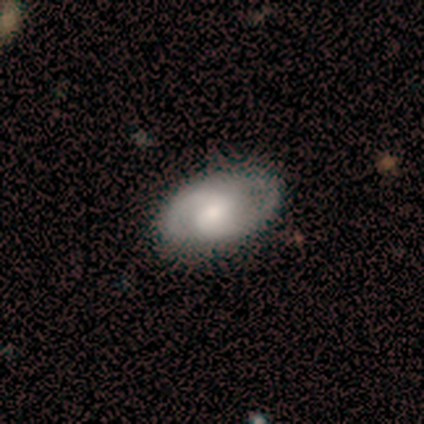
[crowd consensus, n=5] smooth_or_featured: featured or disk (p=1.00)
disk_edge_on: no (p=1.00)
bar: no (p=0.80) [alt: weak p=0.20]
has_spiral_arms: yes (p=0.80) [alt: no p=0.20]
spiral_winding: tight (p=0.50) [alt: medium p=0.25]
spiral_arm_count: 2 (p=1.00)
bulge_size: moderate (p=0.80) [alt: small p=0.20]
merging: none (p=1.00)